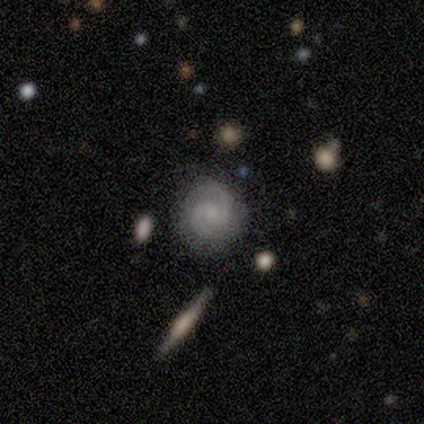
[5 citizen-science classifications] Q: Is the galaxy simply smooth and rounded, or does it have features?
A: featured or disk — 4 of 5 (80%).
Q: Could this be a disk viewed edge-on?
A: no — 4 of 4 (100%).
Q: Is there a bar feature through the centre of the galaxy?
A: weak — 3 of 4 (75%).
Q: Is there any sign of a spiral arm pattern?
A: yes — 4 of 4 (100%).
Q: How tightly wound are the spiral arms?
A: tight — 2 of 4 (50%, tied with medium).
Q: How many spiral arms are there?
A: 2 — 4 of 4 (100%).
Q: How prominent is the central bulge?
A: none — 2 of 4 (50%).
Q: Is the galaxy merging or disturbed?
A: none — 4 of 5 (80%).